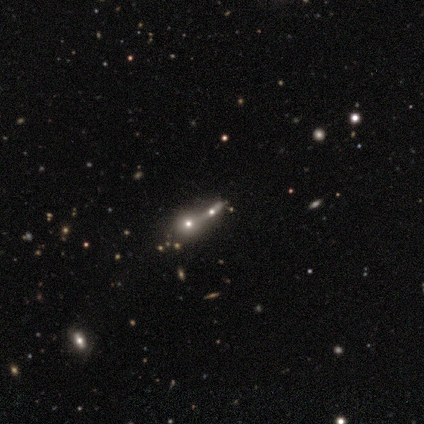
This is possibly a star or artifact rather than a galaxy (50%).